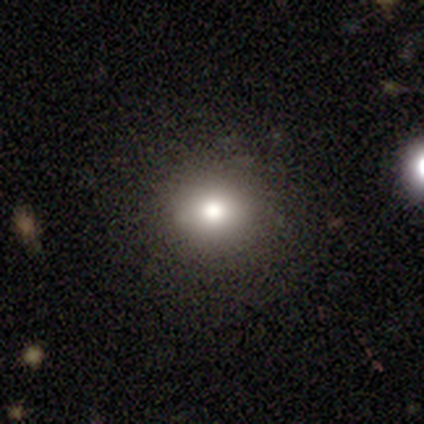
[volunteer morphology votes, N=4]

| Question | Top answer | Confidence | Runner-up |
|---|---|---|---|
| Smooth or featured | smooth | 75% | star or artifact (25%) |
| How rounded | round | 100% | — |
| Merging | none | 100% | — |